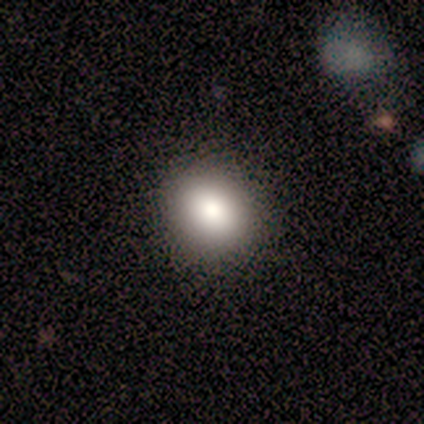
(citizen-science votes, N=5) Volunteers were most divided on "how rounded": round: 75%, in between: 25%, cigar-shaped: 0%. More confident: smooth or featured — smooth (80%); merging — none (75%).